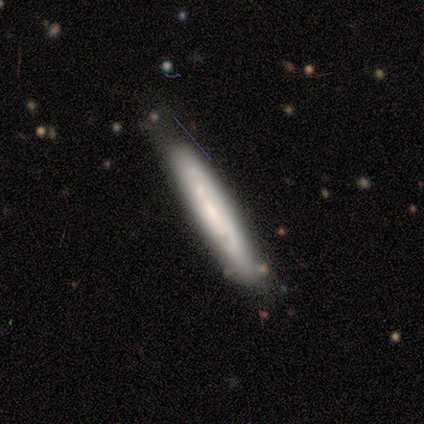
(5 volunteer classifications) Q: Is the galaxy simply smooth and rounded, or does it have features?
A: smooth — 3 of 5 (60%).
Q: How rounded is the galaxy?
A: cigar-shaped — 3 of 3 (100%).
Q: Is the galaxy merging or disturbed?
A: none — 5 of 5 (100%).